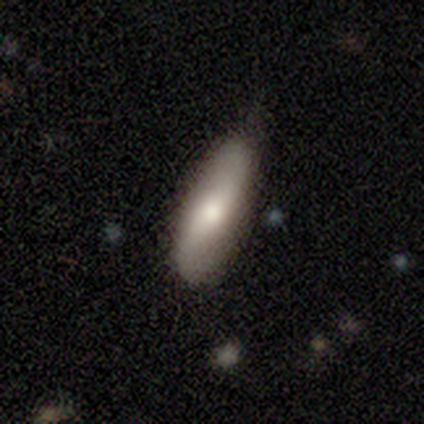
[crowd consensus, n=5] This appears to be a featured or disk galaxy (100%) with no bar (67%), no spiral arms (67%) and a moderate central bulge (100%). Merging: none (60%).